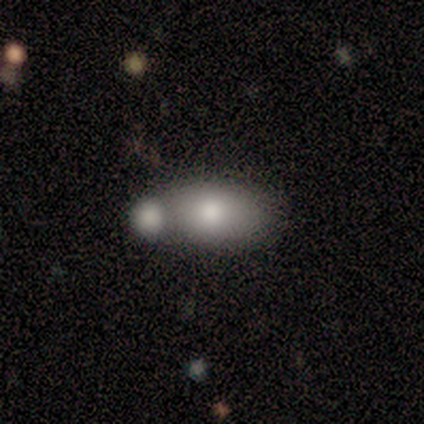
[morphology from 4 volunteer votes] This is clearly a smooth galaxy (100%). How rounded: clearly in between (100%). Merging: possibly merger (50%).